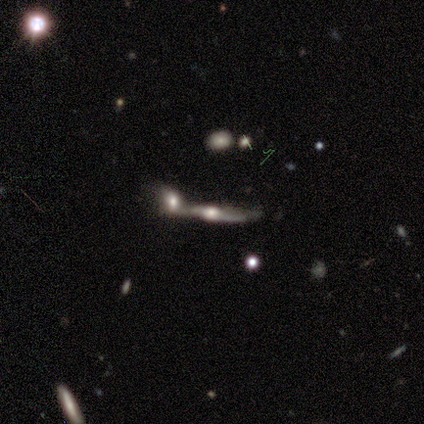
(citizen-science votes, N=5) smooth-or-featured: featured or disk: 80% | star or artifact: 20% | smooth: 0%
  disk-edge-on: yes: 100% | no: 0%
    edge-on-bulge: rounded: 100% | boxy: 0% | none: 0%
  merging: merger: 75% | none: 25% | minor disturbance: 0% | major disturbance: 0%